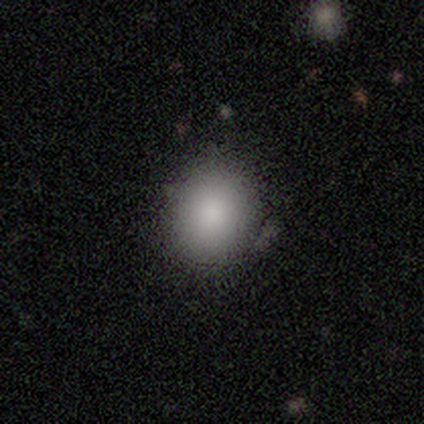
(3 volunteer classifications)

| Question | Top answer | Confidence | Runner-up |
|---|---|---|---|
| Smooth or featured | smooth | 100% | — |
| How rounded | in between | 67% | round (33%) |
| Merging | none | 67% | minor disturbance (33%) |